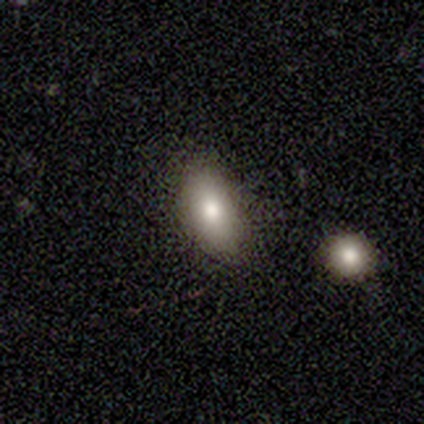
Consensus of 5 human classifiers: smooth-or-featured: smooth: 60% | featured or disk: 20% | star or artifact: 20%
  how-rounded: in between: 100% | round: 0% | cigar-shaped: 0%
  merging: none: 100% | minor disturbance: 0% | major disturbance: 0% | merger: 0%